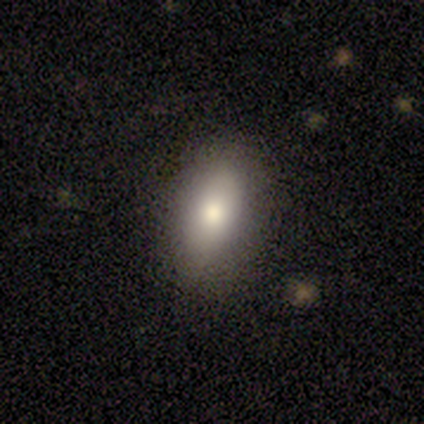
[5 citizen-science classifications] Q: Smooth or featured?
A: smooth (100%)
Q: How rounded?
A: in between (100%)
Q: Merging?
A: none (80%); runner-up: minor disturbance (20%)